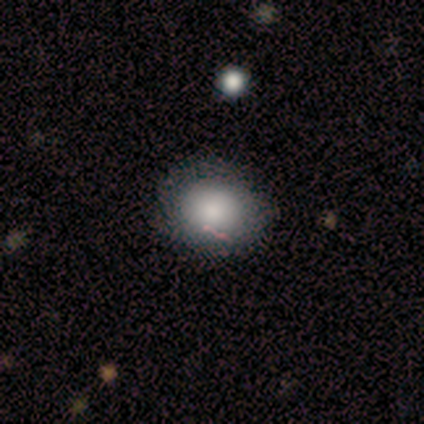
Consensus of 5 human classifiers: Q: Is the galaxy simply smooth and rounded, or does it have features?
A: smooth — 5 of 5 (100%).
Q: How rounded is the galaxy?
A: in between — 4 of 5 (80%).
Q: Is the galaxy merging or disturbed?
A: none — 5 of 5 (100%).